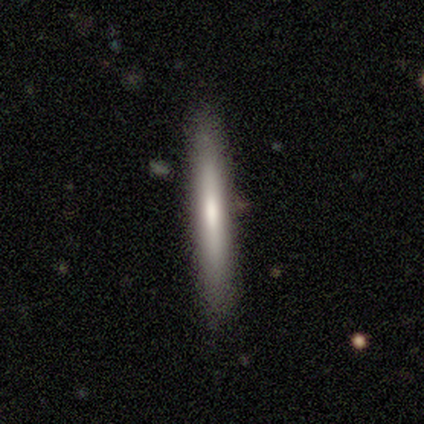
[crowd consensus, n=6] Smooth or featured? 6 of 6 (100%) said smooth. How rounded? 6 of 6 (100%) said cigar-shaped. Merging? 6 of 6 (100%) said none.